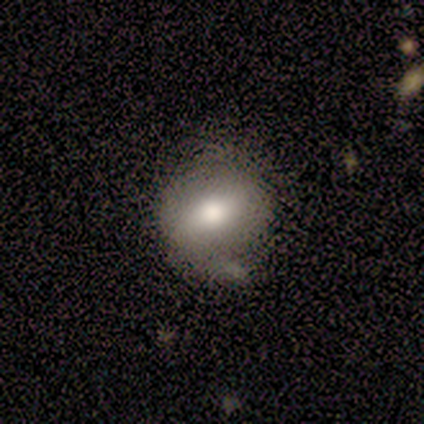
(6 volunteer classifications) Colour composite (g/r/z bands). It shows a smooth galaxy with no disk features (83%) that is round (60%). Merging: none (100%).